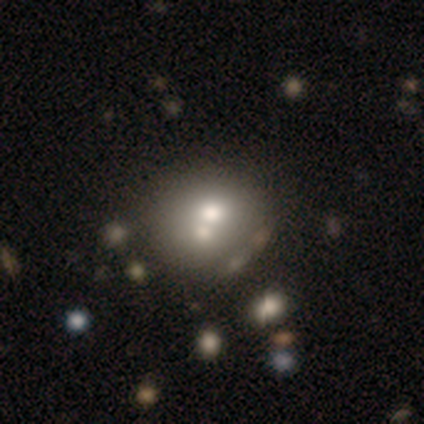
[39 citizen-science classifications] This is likely a smooth galaxy (62%). How rounded: likely round (79%). Merging: possibly merger (49%).